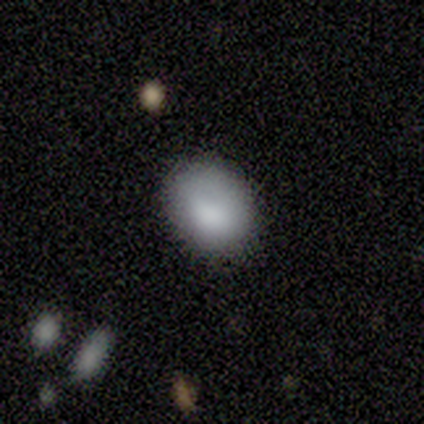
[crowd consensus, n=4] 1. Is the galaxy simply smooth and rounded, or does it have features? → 100% smooth, 0% featured or disk, 0% star or artifact.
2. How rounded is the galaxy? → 75% in between, 25% round, 0% cigar-shaped.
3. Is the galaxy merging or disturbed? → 75% none, 25% minor disturbance, 0% major disturbance, 0% merger.